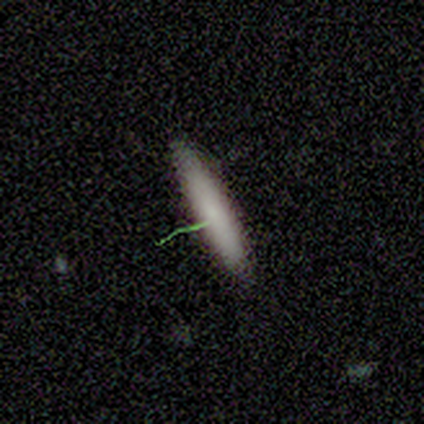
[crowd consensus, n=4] This appears to be a smooth galaxy with no disk features (50%) that is cigar-shaped (100%). Merging: none (67%).